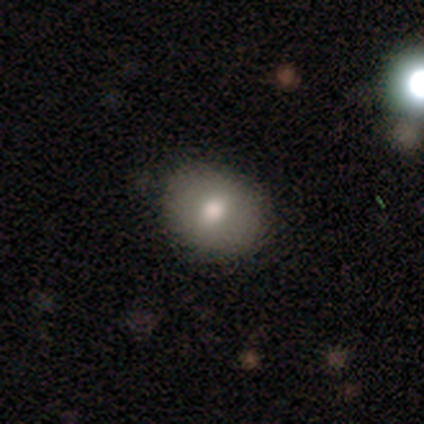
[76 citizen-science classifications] Volunteers were most divided on "how rounded": round: 56%, in between: 44%, cigar-shaped: 0%. Remaining: smooth or featured — smooth (78%); merging — none (49%).